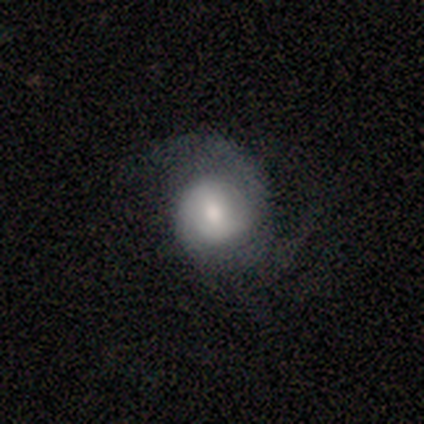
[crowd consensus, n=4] smooth-or-featured: featured or disk: 100% | smooth: 0% | star or artifact: 0%
  disk-edge-on: no: 100% | yes: 0%
    bar: weak: 50% (tied) | no: 50% (tied) | strong: 0%
    has-spiral-arms: yes: 100% | no: 0%
      spiral-winding: tight: 50% (tied) | medium: 50% (tied) | loose: 0%
      spiral-arm-count: 2: 75% | 1: 25% | 3: 0% | 4: 0% | more than 4: 0% | can't tell: 0%
    bulge-size: moderate: 50% | dominant: 25% | large: 25% | small: 0% | none: 0%
  merging: none: 50% (tied) | major disturbance: 50% (tied) | minor disturbance: 0% | merger: 0%